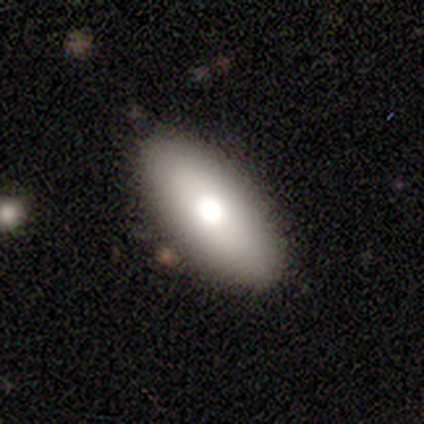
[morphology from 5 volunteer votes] This is clearly a smooth galaxy (80%). How rounded: clearly in between (100%). Merging: clearly none (80%).